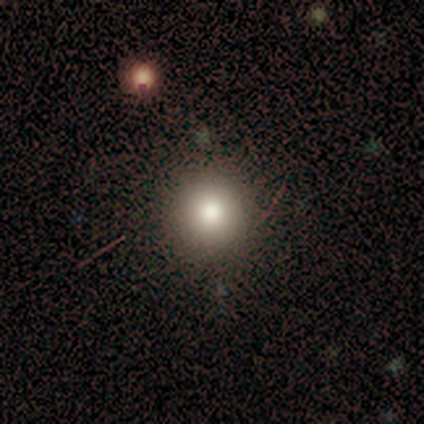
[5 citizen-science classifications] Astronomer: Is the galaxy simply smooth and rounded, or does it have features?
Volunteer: smooth — 60%.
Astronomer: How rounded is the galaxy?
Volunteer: round — 100%.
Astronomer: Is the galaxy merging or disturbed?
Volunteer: none — 100%.